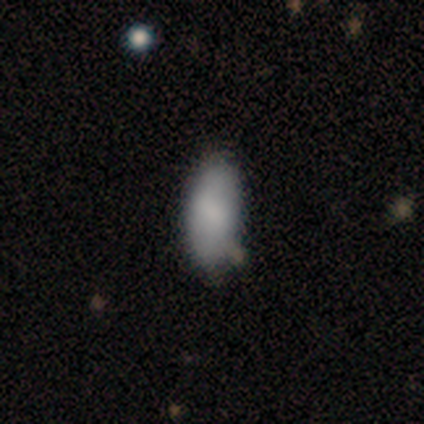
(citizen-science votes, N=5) A smooth galaxy with no disk features (60%) that is in between round and cigar-shaped (100%).

Vote fractions:
- Smooth or featured? smooth: 60% / featured or disk: 40% / star or artifact: 0%
- How rounded? in between: 100% / round: 0% / cigar-shaped: 0%
- Merging? none: 80% / minor disturbance: 20% / major disturbance: 0% / merger: 0%